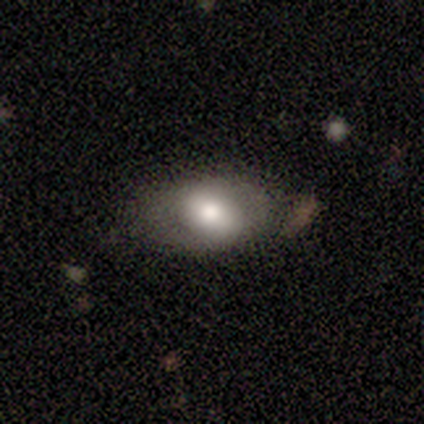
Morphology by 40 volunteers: Overall: smooth (55%; featured or disk 32%). How rounded: in between (86%). Merging: none (66%).